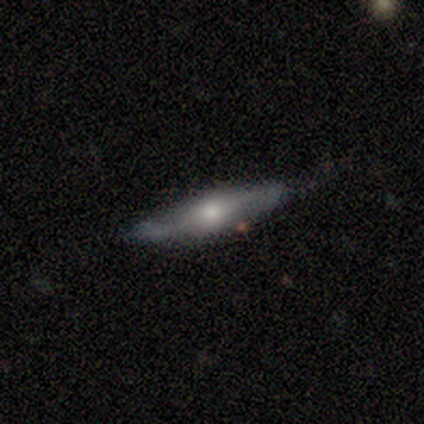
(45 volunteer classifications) Volunteers were most divided on "smooth or featured": featured or disk: 62%, smooth: 36%, star or artifact: 2%. More confident: edge-on bulge — rounded (89%); merging — none (77%); edge-on disk — yes (64%).